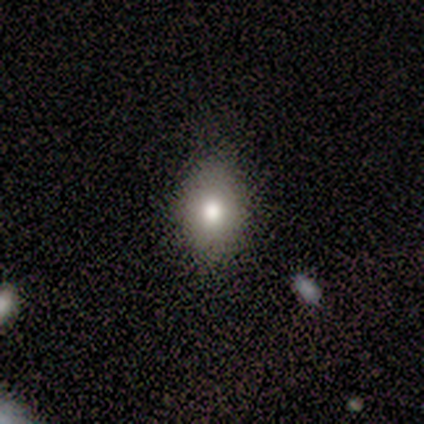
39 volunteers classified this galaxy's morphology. smooth 64%, featured or disk 18%, star or artifact 18%. Down the decision tree: how rounded — in between (60%); merging — none (75%).